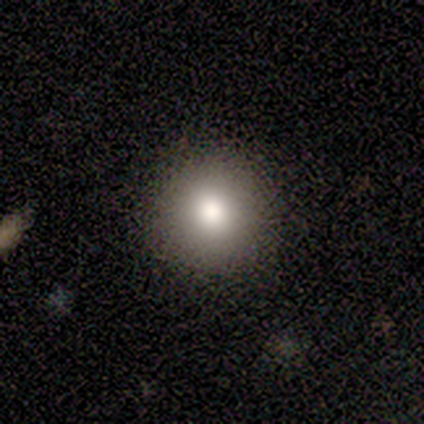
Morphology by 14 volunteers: Overall: smooth (64%). How rounded: round (100%). Merging: none (92%).